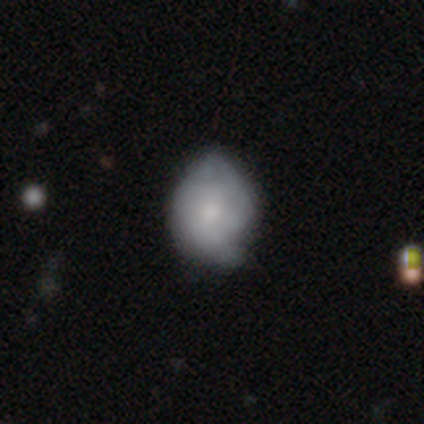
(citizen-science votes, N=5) This appears to be a smooth galaxy with no disk features (100%) that is round (80%). Merging: none (60%).